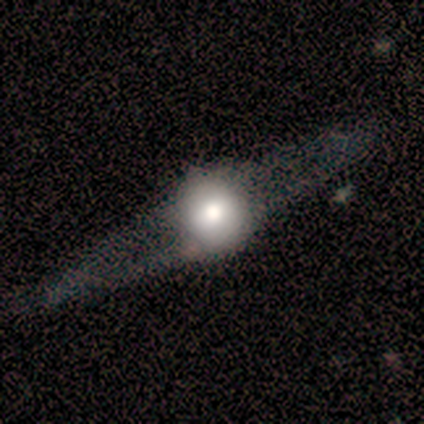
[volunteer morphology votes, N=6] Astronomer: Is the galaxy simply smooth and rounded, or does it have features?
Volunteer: featured or disk — 83%.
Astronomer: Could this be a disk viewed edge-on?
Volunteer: yes — 60% (runner-up: no, 40%).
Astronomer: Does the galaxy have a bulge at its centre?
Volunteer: rounded — 100%.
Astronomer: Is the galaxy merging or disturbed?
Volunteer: none — 100%.